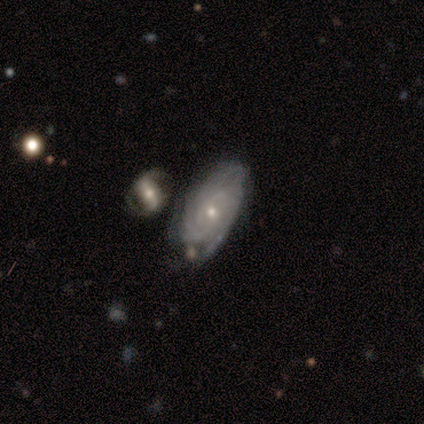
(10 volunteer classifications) Smooth or featured? 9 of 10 (90%) said featured or disk. Edge-on disk? 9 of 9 (100%) said no. Bar? 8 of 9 (89%) said no. Spiral arms? 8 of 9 (89%) said yes. Spiral winding? 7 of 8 (88%) said tight. Spiral arm count? 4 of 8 (50%) said can't tell. Bulge size? 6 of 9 (67%) said small. Merging? 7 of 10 (70%) said none.